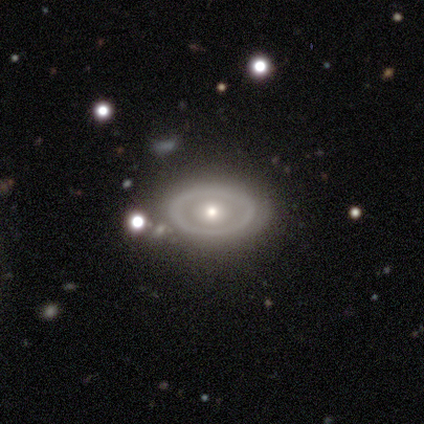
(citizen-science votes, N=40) Smooth or featured? featured or disk (55%)
Edge-on disk? no (95%)
Bar? no (90%)
Spiral arms? no (90%)
Bulge size? moderate (62%)
Merging? none (85%)